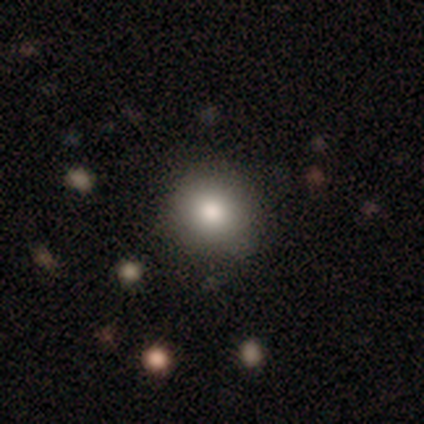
Smooth or featured? smooth (75%)
How rounded? round (67%)
Merging? none (75%)